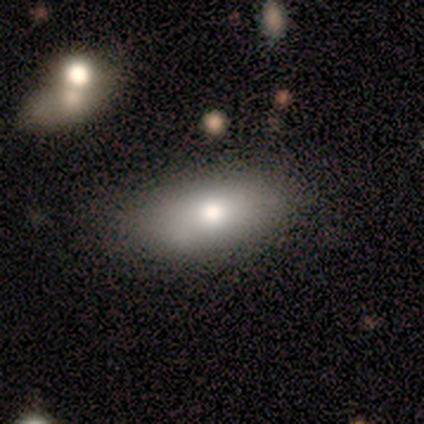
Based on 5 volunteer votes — Smooth or featured? smooth (100%)
How rounded? in between (80%)
Merging? none (80%)